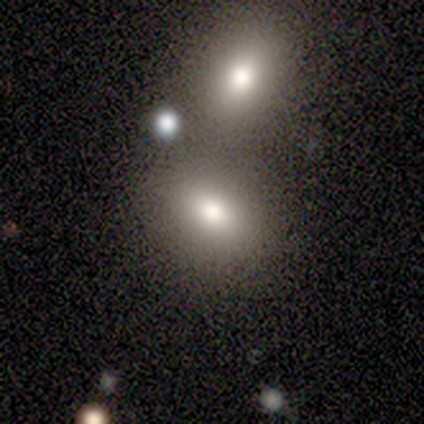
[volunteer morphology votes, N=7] Smooth or featured?
  - smooth: 100% *
  - featured or disk: 0%
  - star or artifact: 0%
How rounded?
  - in between: 86% *
  - round: 14%
  - cigar-shaped: 0%
Merging?
  - none: 43% * (tied)
  - merger: 43% * (tied)
  - minor disturbance: 14%
  - major disturbance: 0%